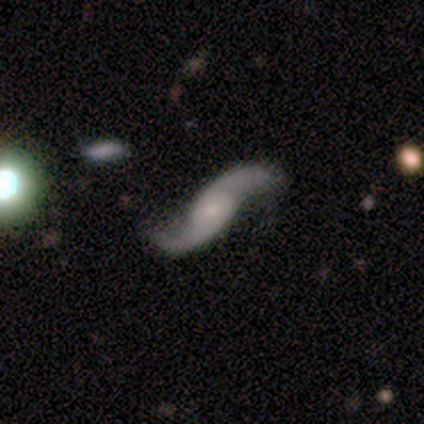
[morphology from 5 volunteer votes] A featured or disk galaxy (100%) with no bar (50%), 2 (100%) loose (100%) spiral arms (100%) and a large central bulge (50%, tied with moderate). Merging: none (80%).